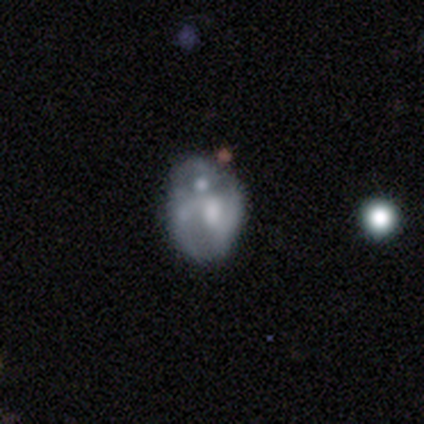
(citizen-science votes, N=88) Morphology: type=featured or disk (64%); edge-on=no (96%); bar=no (81%); spiral arms=no (63%); bulge=moderate (57%); merging=none (41%).